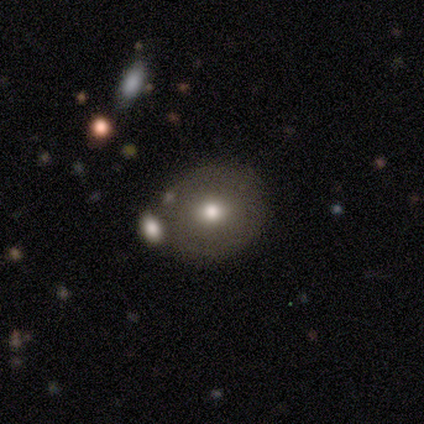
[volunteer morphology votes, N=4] A smooth galaxy with no disk features (75%) that is round (100%). Merging: none (50%).